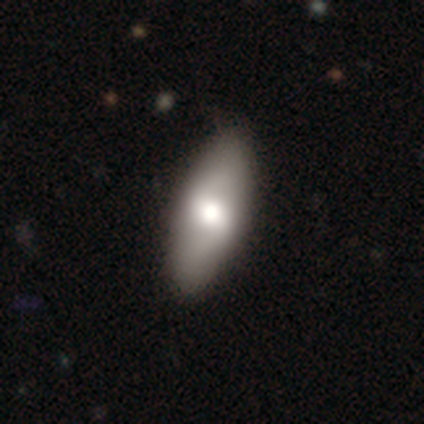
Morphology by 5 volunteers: Smooth or featured?
  - smooth: 60% *
  - featured or disk: 20%
  - star or artifact: 20%
How rounded?
  - in between: 100% *
  - round: 0%
  - cigar-shaped: 0%
Merging?
  - none: 75% *
  - minor disturbance: 25%
  - major disturbance: 0%
  - merger: 0%